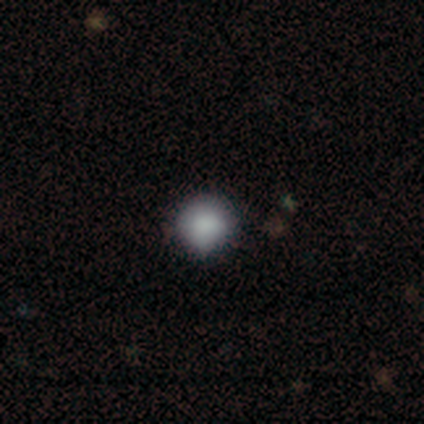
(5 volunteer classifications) Volunteers were most divided on "merging": none: 50%, minor disturbance: 25%, merger: 25%, major disturbance: 0%. More confident: smooth or featured — smooth (80%); how rounded — round (75%).